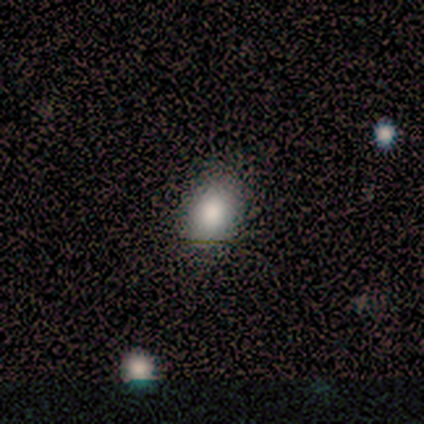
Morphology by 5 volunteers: Q: Smooth or featured?
A: smooth (100%)
Q: How rounded?
A: in between (80%); runner-up: round (20%)
Q: Merging?
A: none (80%); runner-up: minor disturbance (20%)